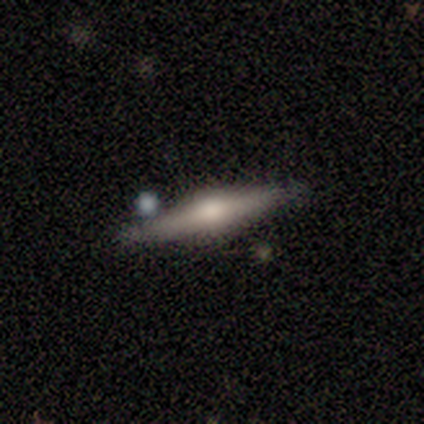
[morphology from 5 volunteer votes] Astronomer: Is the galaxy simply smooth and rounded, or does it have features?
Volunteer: featured or disk — 80%.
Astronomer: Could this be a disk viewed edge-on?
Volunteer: yes — 75%.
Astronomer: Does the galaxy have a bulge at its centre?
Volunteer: rounded — 100%.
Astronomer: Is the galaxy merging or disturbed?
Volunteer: none — 75%.